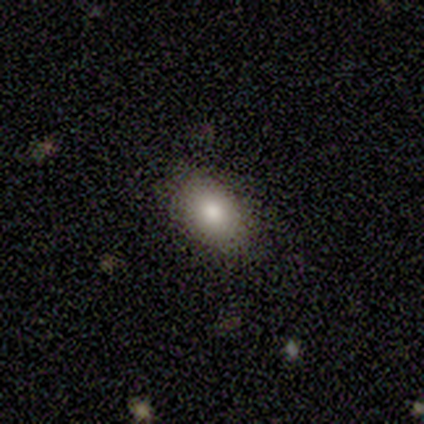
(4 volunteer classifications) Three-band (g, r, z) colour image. It shows a smooth galaxy with no disk features (100%) that is in between round and cigar-shaped (100%). Merging: none (75%).